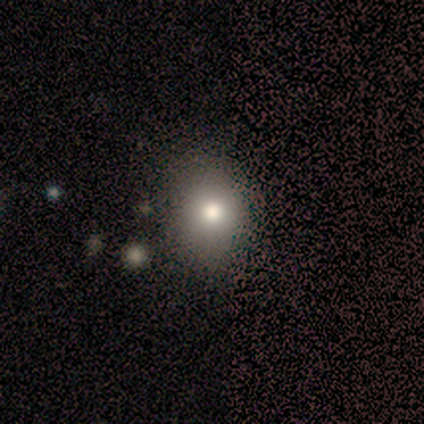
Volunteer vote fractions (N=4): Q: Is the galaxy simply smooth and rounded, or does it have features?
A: smooth — 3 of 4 (75%).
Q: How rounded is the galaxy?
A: in between — 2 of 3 (67%).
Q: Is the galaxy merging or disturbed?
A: none — 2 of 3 (67%).